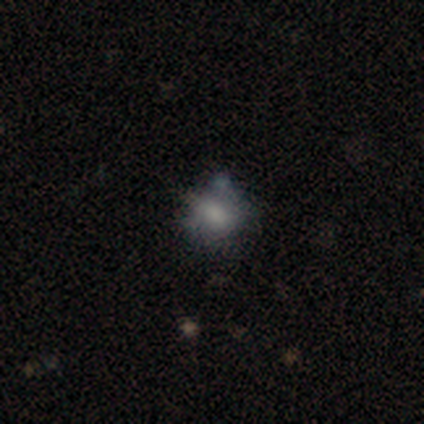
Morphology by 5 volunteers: Smooth or featured? smooth (60%)
How rounded? round (67%)
Merging? minor disturbance (40%)